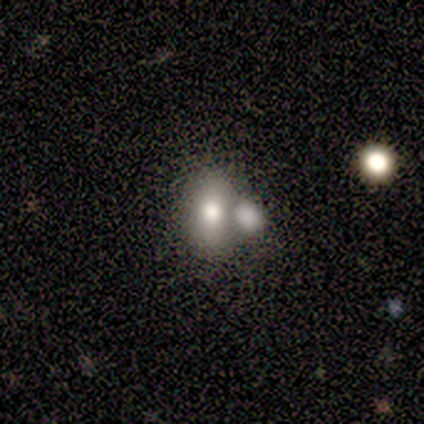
Smooth or featured: smooth — 63% (featured or disk — 22%)
How rounded: in between — 77% (round — 23%)
Merging: merger — 49% (none — 37%)